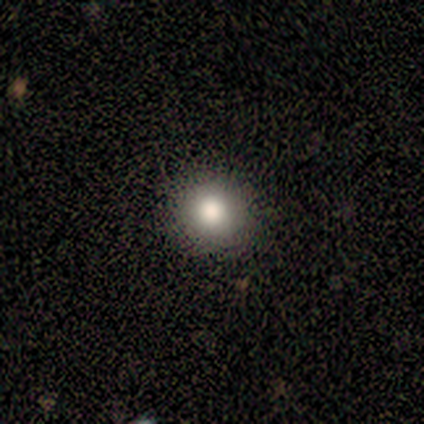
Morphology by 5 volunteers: A smooth galaxy with no disk features (80%) that is round (75%).

Vote fractions:
- Smooth or featured? smooth: 80% / featured or disk: 20% / star or artifact: 0%
- How rounded? round: 75% / in between: 25% / cigar-shaped: 0%
- Merging? none: 80% / minor disturbance: 20% / major disturbance: 0% / merger: 0%